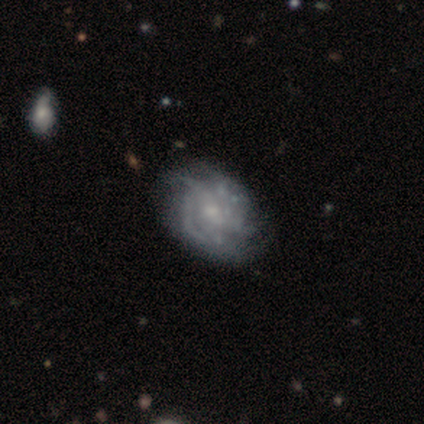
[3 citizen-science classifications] A featured or disk galaxy (100%) with no bar (100%), tight (100%) spiral arms (100%) and a small central bulge (67%). Merging: none (67%).